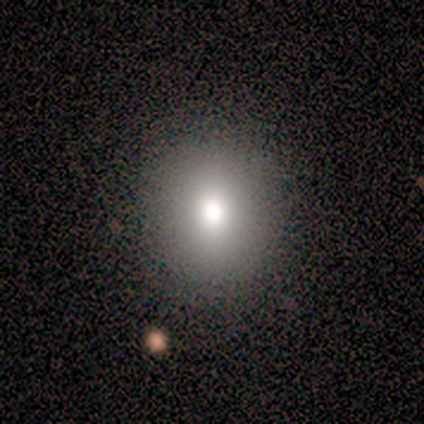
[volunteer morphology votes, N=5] A smooth galaxy with no disk features (80%) that is round (75%). Merging: none (100%).